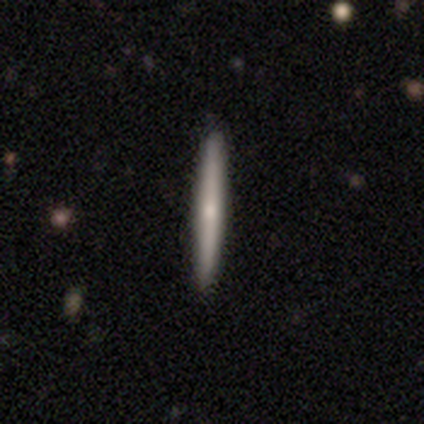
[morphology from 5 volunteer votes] Volunteers were most divided on "edge-on bulge": rounded: 67%, none: 33%, boxy: 0%. More confident: edge-on disk — yes (100%); merging — none (100%); smooth or featured — featured or disk (60%).